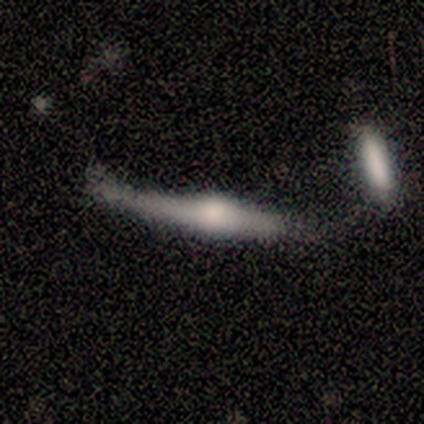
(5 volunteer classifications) Smooth or featured: featured or disk — 80% (smooth — 20%)
Edge-on disk: yes — 100%
Edge-on bulge: rounded — 100%
Merging: none — 40% (minor disturbance — 20%)